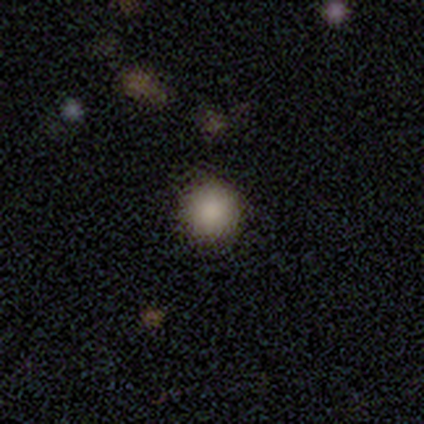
Overall: smooth (75%). How rounded: round (100%). Merging: none (71%).